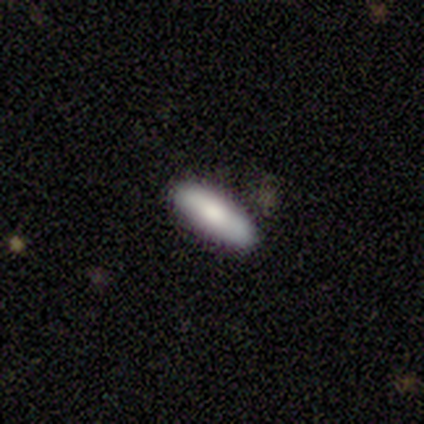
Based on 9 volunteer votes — Smooth or featured? smooth (67%)
How rounded? in between (50%, tied with cigar-shaped)
Merging? none (67%)